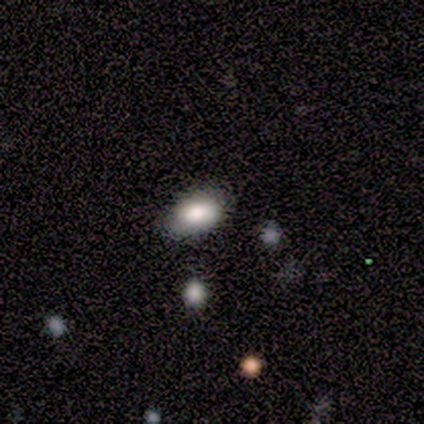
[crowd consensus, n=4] Overall: smooth (75%). How rounded: in between (100%). Merging: none (100%).